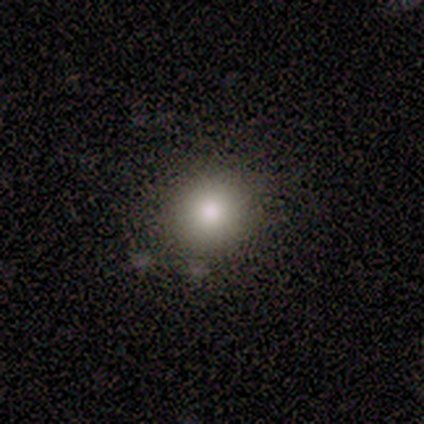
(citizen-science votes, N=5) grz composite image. It shows a smooth galaxy with no disk features (80%) that is round (100%). Merging: none (100%).